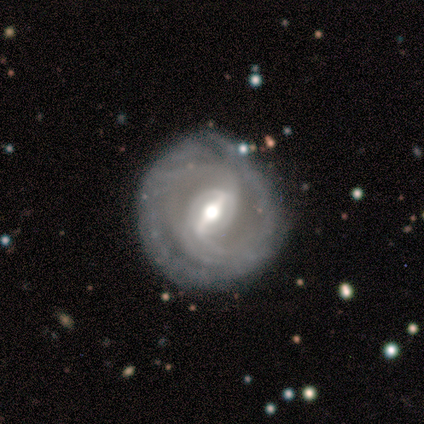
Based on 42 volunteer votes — smooth-or-featured: featured or disk: 98% | star or artifact: 2% | smooth: 0%
  disk-edge-on: no: 98% | yes: 2%
    bar: strong: 68% | weak: 28% | no: 5%
    has-spiral-arms: yes: 82% | no: 18%
      spiral-winding: tight: 61% | medium: 21% | loose: 18%
      spiral-arm-count: 2: 45% | can't tell: 36% | more than 4: 15% | 4: 3% | 1: 0% | 3: 0%
    bulge-size: moderate: 60% | large: 20% | small: 18% | dominant: 2% | none: 0%
  merging: none: 85% | minor disturbance: 10% | major disturbance: 5% | merger: 0%